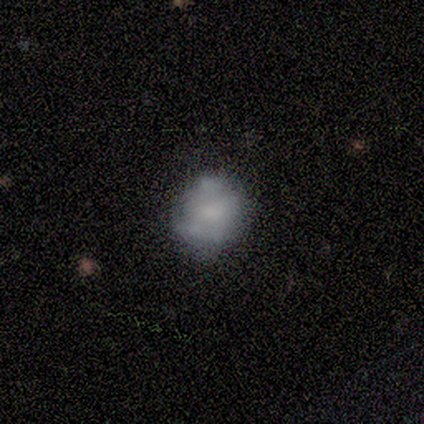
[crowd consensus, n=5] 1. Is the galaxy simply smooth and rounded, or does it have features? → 80% smooth, 20% featured or disk, 0% star or artifact.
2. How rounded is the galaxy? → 50% round (tied), 50% in between (tied), 0% cigar-shaped.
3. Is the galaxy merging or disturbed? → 80% minor disturbance, 20% none, 0% major disturbance, 0% merger.